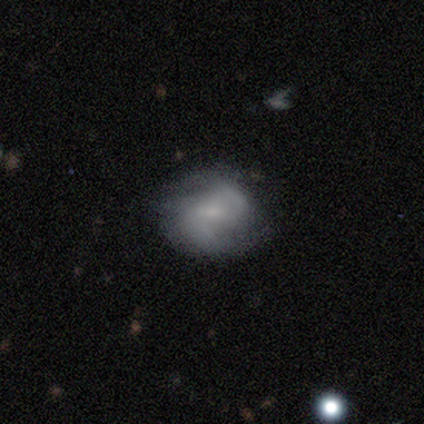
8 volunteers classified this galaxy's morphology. This is clearly a featured or disk galaxy (88%). It is clearly not viewed edge-on (100%). Bar: possibly no (57%). Spiral arm pattern: clearly yes (100%). Spiral arm count: clearly 2 (100%). Spiral winding: clearly medium (86%). Central bulge: clearly small (100%). Merging: likely none (62%).